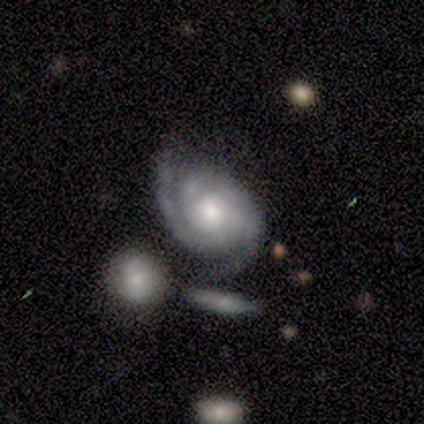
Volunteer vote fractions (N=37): Smooth or featured?
  - featured or disk: 95% *
  - smooth: 3%
  - star or artifact: 3%
Edge-on disk?
  - no: 97% *
  - yes: 3%
Bar?
  - no: 76% *
  - weak: 18%
  - strong: 6%
Spiral arms?
  - yes: 100% *
  - no: 0%
Spiral winding?
  - tight: 79% *
  - medium: 15%
  - loose: 6%
Spiral arm count?
  - 2: 76% *
  - 3: 15%
  - can't tell: 6%
  - 4: 3%
  - 1: 0%
  - more than 4: 0%
Bulge size?
  - moderate: 65% *
  - small: 21%
  - large: 15%
  - dominant: 0%
  - none: 0%
Merging?
  - none: 69% *
  - minor disturbance: 14%
  - merger: 11%
  - major disturbance: 6%